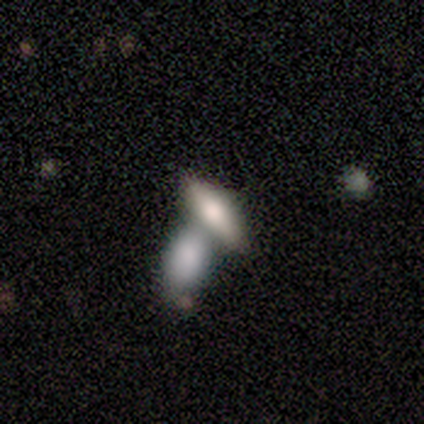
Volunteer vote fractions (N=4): Smooth or featured? 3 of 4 (75%) said smooth. How rounded? 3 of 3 (100%) said in between. Merging? 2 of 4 (50%, tied with merger) said none.